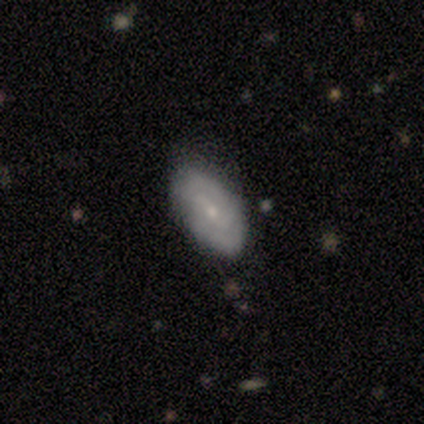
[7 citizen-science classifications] smooth-or-featured: smooth: 71% | featured or disk: 29% | star or artifact: 0%
  how-rounded: in between: 100% | round: 0% | cigar-shaped: 0%
  merging: none: 71% | minor disturbance: 29% | major disturbance: 0% | merger: 0%